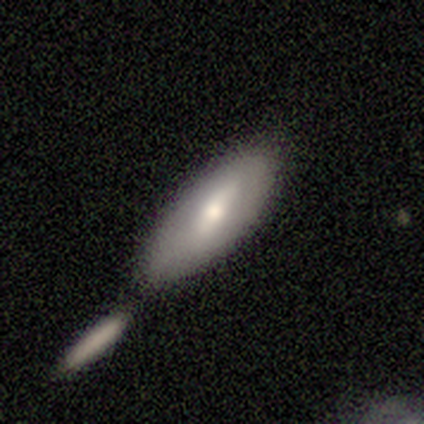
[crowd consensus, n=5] smooth-or-featured: smooth: 80% | featured or disk: 20% | star or artifact: 0%
  how-rounded: in between: 100% | round: 0% | cigar-shaped: 0%
  merging: none: 60% | merger: 40% | minor disturbance: 0% | major disturbance: 0%